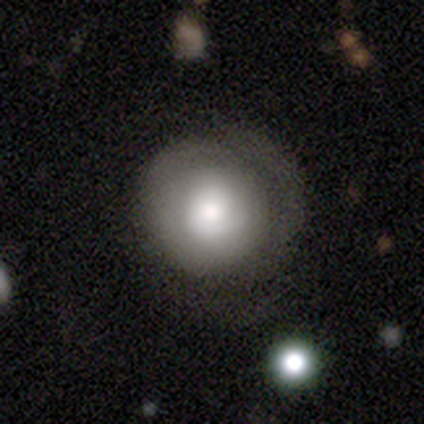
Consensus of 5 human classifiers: Smooth or featured?
  - smooth: 60% *
  - featured or disk: 40%
  - star or artifact: 0%
How rounded?
  - round: 100% *
  - in between: 0%
  - cigar-shaped: 0%
Merging?
  - none: 100% *
  - minor disturbance: 0%
  - major disturbance: 0%
  - merger: 0%